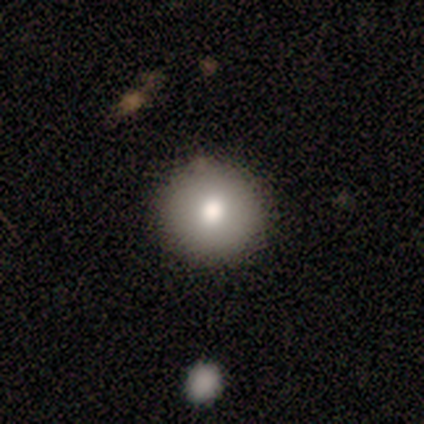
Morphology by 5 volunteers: Smooth or featured? smooth (80%)
How rounded? round (100%)
Merging? none (100%)